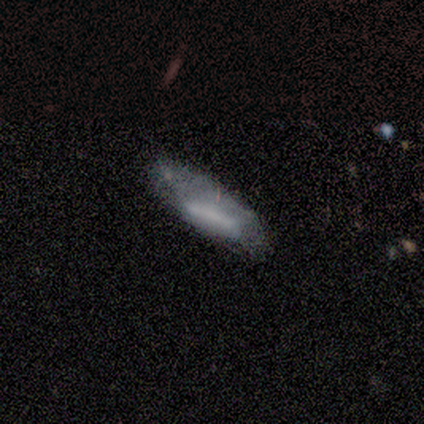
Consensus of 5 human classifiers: smooth_or_featured: smooth (p=0.60) [alt: featured or disk p=0.40]
how_rounded: in between (p=0.67) [alt: cigar-shaped p=0.33]
merging: minor disturbance (p=0.60) [alt: none p=0.20]